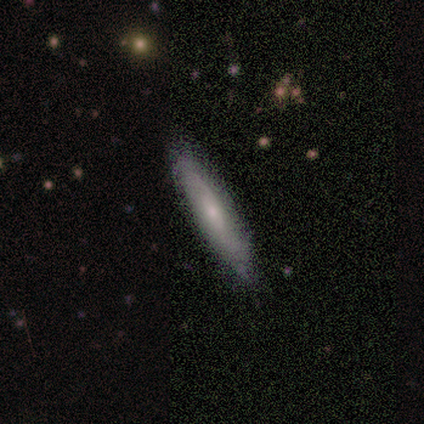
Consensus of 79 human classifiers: smooth-or-featured: smooth: 61% | featured or disk: 37% | star or artifact: 3%
  how-rounded: cigar-shaped: 79% | in between: 21% | round: 0%
  merging: none: 45% | minor disturbance: 5% | merger: 1% | major disturbance: 0%